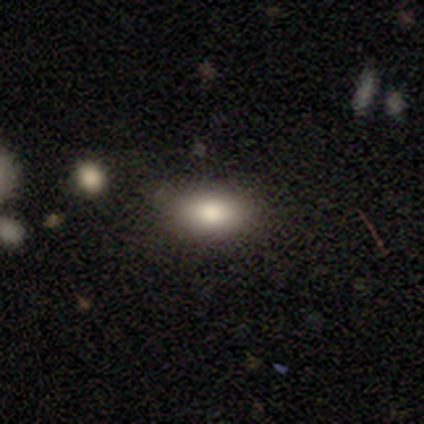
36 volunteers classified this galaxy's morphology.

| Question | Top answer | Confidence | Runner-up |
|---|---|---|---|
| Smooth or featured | smooth | 86% | featured or disk (8%) |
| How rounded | in between | 90% | round (10%) |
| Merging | none | 79% | minor disturbance (9%) |